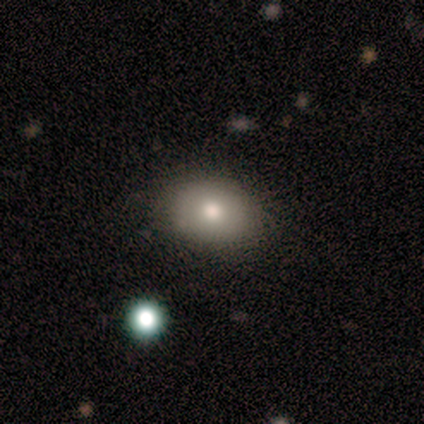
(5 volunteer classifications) Morphology: type=smooth (80%); roundness=in between (100%); merging=none (100%).